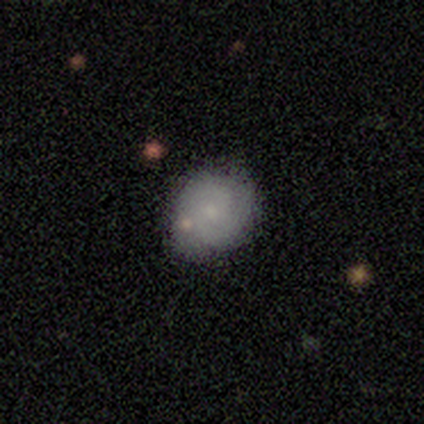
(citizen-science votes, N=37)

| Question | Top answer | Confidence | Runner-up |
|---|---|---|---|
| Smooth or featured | smooth | 51% | featured or disk (38%) |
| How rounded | round | 68% | in between (32%) |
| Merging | none | 70% | minor disturbance (30%) |